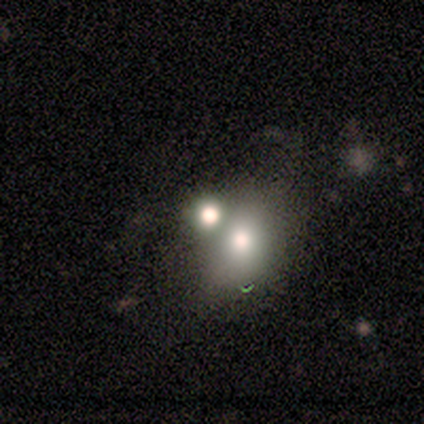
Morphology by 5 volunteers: Smooth or featured? smooth (40%, tied with featured or disk)
How rounded? round (50%, tied with in between)
Merging? none (25%, tied with minor disturbance, major disturbance and merger)